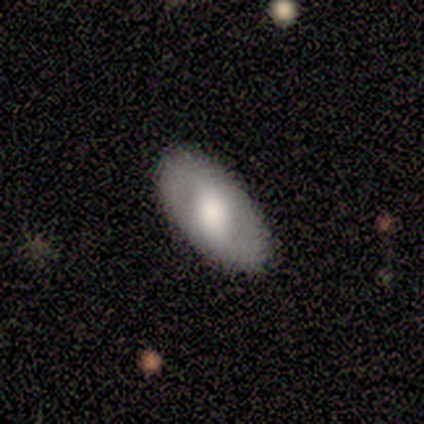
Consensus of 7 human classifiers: featured or disk 57%, smooth 43%, star or artifact 0%. Down the decision tree: edge-on disk — no (75%); bar — weak (67%); spiral arms — no (67%); bulge size — moderate (67%); merging — none (86%).